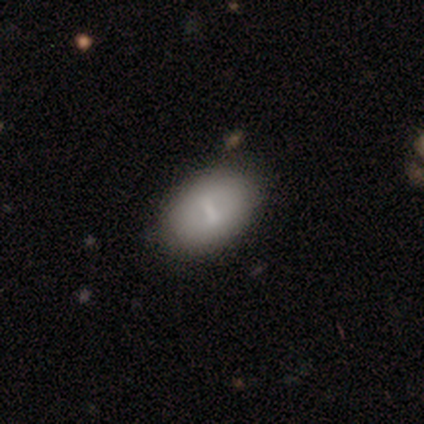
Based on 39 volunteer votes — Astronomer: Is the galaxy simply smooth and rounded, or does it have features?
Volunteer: featured or disk — 54% (runner-up: smooth, 41%).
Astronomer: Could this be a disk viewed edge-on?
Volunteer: no — 100%.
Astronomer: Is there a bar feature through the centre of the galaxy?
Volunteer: strong — 48%, tied with weak at 48%.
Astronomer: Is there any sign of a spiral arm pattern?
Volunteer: no — 90%.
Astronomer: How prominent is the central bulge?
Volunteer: none — 57%.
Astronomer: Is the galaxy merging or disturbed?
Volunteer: none — 70%.